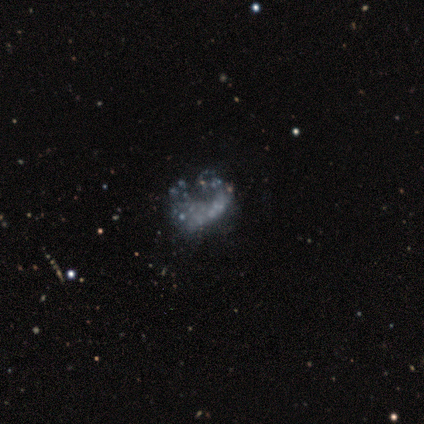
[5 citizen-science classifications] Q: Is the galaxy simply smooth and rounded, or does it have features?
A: featured or disk — 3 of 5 (60%).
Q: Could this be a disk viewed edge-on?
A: no — 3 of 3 (100%).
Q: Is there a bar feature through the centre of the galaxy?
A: no — 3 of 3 (100%).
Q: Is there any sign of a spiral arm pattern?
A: no — 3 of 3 (100%).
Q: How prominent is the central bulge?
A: none — 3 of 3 (100%).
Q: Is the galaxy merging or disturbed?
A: major disturbance — 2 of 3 (67%).